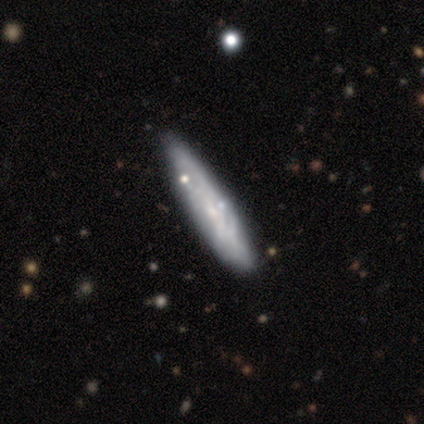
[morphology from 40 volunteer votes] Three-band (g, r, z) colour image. It shows a featured or disk galaxy (65%) viewed edge-on (62%) with no central bulge (69%). Merging: none (69%).